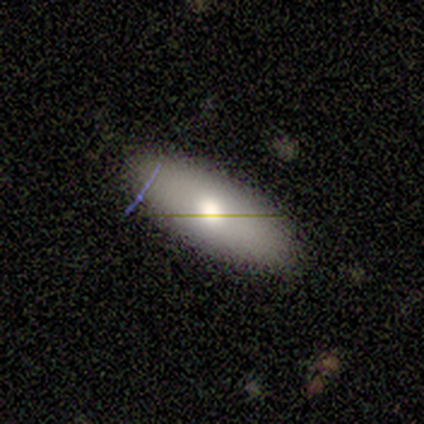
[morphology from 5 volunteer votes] Smooth or featured? 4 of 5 (80%) said smooth. How rounded? 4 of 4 (100%) said in between. Merging? 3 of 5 (60%) said none.